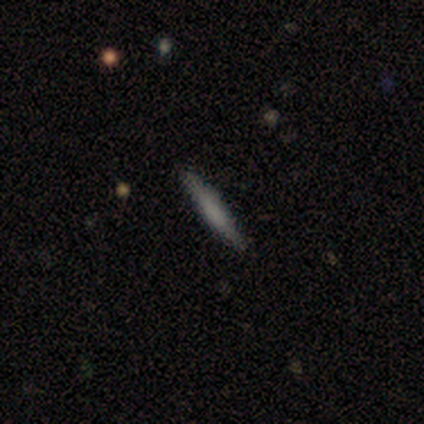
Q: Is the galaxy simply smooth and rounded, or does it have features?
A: smooth — 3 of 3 (100%).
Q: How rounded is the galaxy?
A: cigar-shaped — 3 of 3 (100%).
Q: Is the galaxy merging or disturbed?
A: none — 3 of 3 (100%).